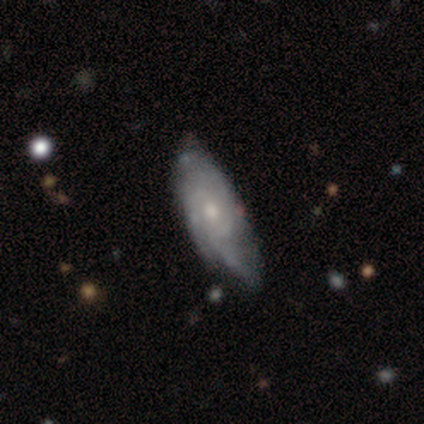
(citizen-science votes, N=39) featured or disk 59%, smooth 33%, star or artifact 8%. Down the decision tree: edge-on disk — no (91%); bar — no (90%); spiral arms — yes (95%); spiral arm count — 3 (50%); spiral winding — tight (45%); bulge size — moderate (52%); merging — none (50%).